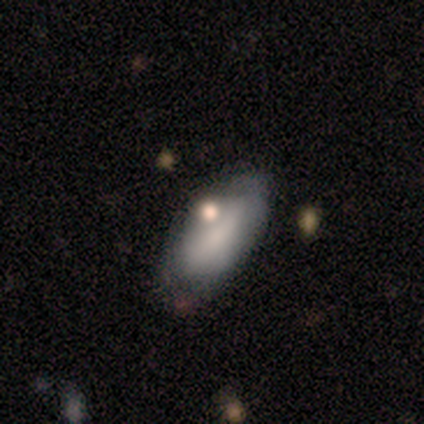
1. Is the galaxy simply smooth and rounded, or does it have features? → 80% smooth, 20% star or artifact, 0% featured or disk.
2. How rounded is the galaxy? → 100% in between, 0% round, 0% cigar-shaped.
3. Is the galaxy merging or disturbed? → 75% none, 25% merger, 0% minor disturbance, 0% major disturbance.